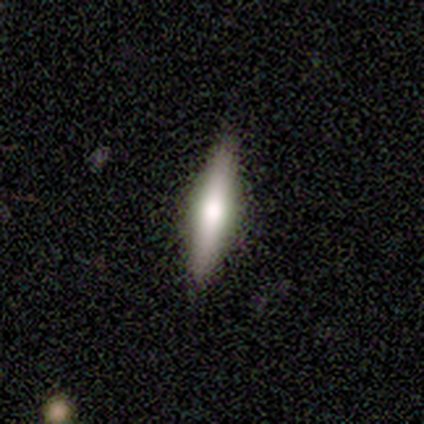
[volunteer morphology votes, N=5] Smooth or featured? 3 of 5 (60%) said featured or disk. Edge-on disk? 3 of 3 (100%) said yes. Edge-on bulge? 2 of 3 (67%) said rounded. Merging? 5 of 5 (100%) said none.